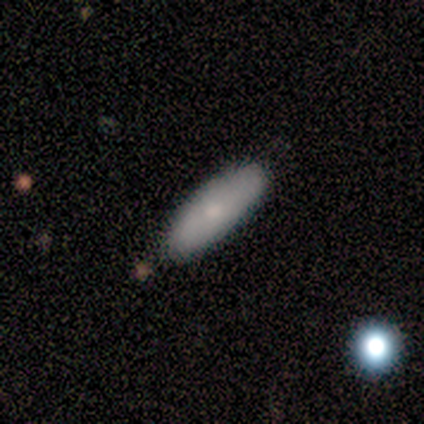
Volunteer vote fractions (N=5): Q: Smooth or featured?
A: smooth (60%); runner-up: featured or disk (40%)
Q: How rounded?
A: in between (100%)
Q: Merging?
A: none (100%)